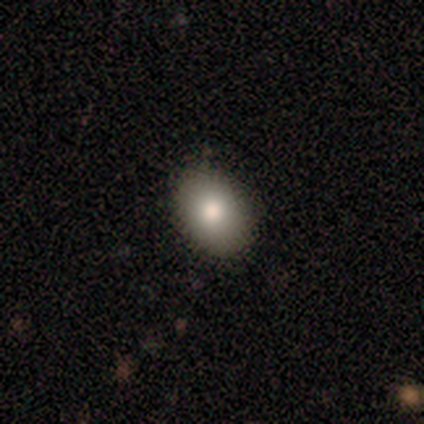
A smooth galaxy with no disk features (80%) that is in between round and cigar-shaped (100%).

Vote fractions:
- Smooth or featured? smooth: 80% / featured or disk: 20% / star or artifact: 0%
- How rounded? in between: 100% / round: 0% / cigar-shaped: 0%
- Merging? none: 80% / major disturbance: 20% / minor disturbance: 0% / merger: 0%